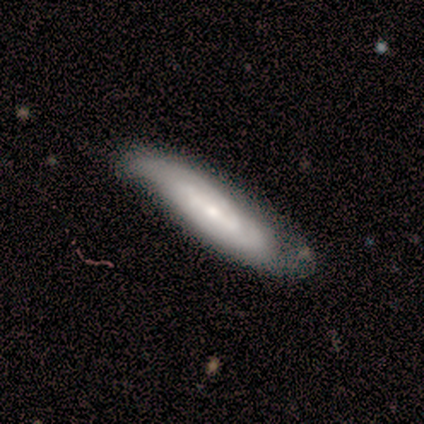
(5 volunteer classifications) A featured or disk galaxy (60%) viewed edge-on (67%) with a boxy central bulge (50%, tied with rounded). Merging: none (60%).